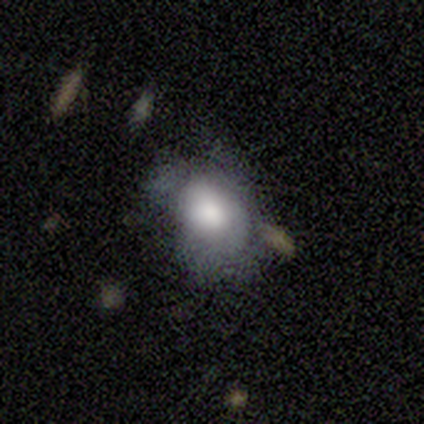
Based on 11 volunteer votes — Smooth or featured? smooth (82%)
How rounded? in between (89%)
Merging? none (36%, tied with minor disturbance)